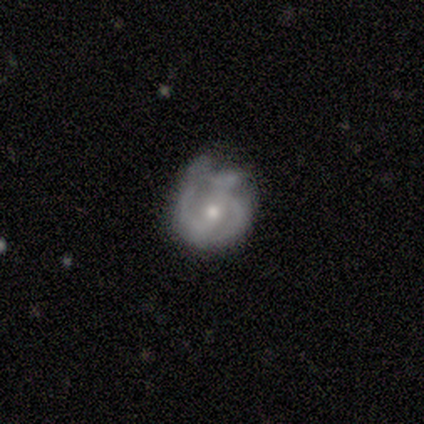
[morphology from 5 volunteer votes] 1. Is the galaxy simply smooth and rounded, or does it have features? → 100% featured or disk, 0% smooth, 0% star or artifact.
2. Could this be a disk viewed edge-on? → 100% no, 0% yes.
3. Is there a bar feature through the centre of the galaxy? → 40% strong (tied), 40% weak (tied), 20% no.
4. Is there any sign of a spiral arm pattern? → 100% yes, 0% no.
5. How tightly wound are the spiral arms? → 80% medium, 20% tight, 0% loose.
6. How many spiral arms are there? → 60% 2, 20% 3, 20% can't tell, 0% 1, 0% 4, 0% more than 4.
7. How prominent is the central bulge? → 60% moderate, 40% small, 0% dominant, 0% large, 0% none.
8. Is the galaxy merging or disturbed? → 40% none (tied), 40% minor disturbance (tied), 20% major disturbance, 0% merger.